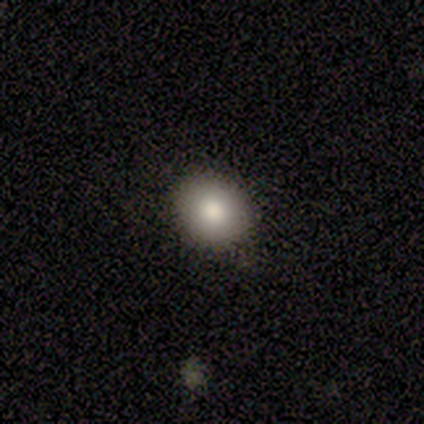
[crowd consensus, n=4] A smooth galaxy with no disk features (75%) that is round (100%).

Vote fractions:
- Smooth or featured? smooth: 75% / star or artifact: 25% / featured or disk: 0%
- How rounded? round: 100% / in between: 0% / cigar-shaped: 0%
- Merging? none: 67% / merger: 33% / minor disturbance: 0% / major disturbance: 0%